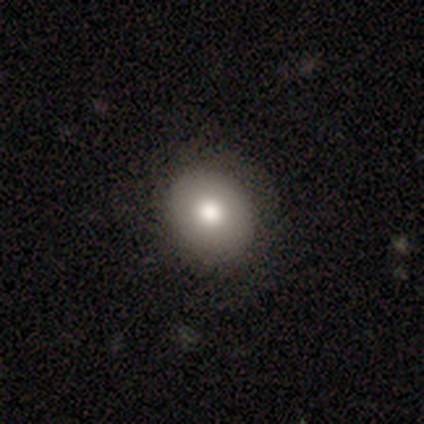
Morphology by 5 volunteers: Q: Smooth or featured?
A: smooth (60%); runner-up: featured or disk (40%)
Q: How rounded?
A: round (67%); runner-up: in between (33%)
Q: Merging?
A: none (100%)